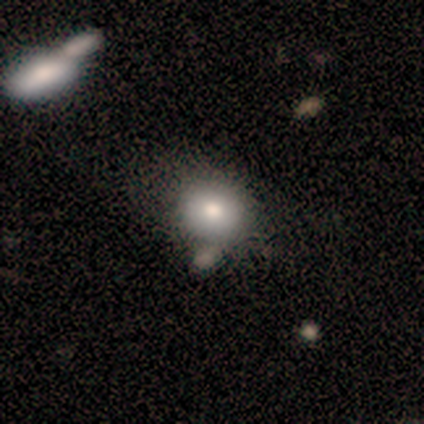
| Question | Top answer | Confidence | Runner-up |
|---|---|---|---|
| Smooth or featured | smooth | 50% | featured or disk (25%) |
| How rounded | round | 50% | tied: in between (50%) |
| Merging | minor disturbance | 67% | none (33%) |